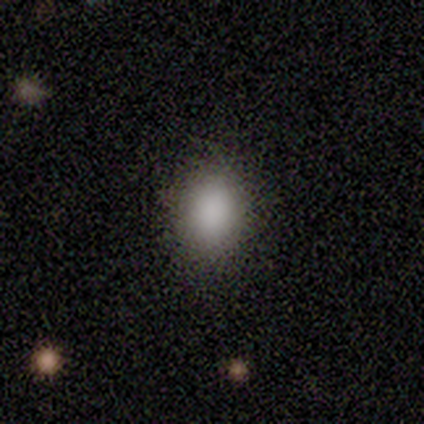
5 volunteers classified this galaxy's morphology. Q: Smooth or featured?
A: smooth (100%)
Q: How rounded?
A: round (60%); runner-up: in between (40%)
Q: Merging?
A: none (100%)